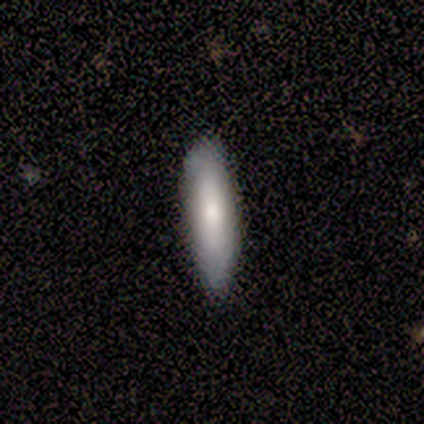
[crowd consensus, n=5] Smooth or featured?
  - smooth: 60% *
  - featured or disk: 20%
  - star or artifact: 20%
How rounded?
  - in between: 67% *
  - cigar-shaped: 33%
  - round: 0%
Merging?
  - none: 100% *
  - minor disturbance: 0%
  - major disturbance: 0%
  - merger: 0%